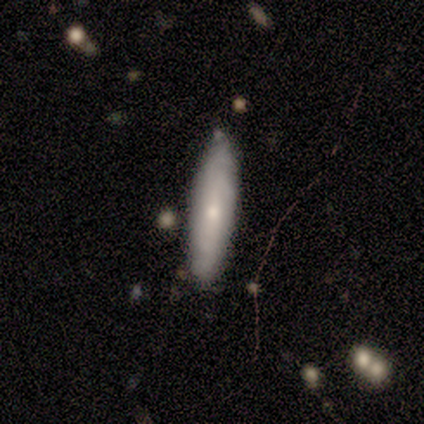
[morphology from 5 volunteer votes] Overall: smooth (60%; featured or disk 40%). How rounded: in between (67%; cigar-shaped 33%). Merging: none (80%).